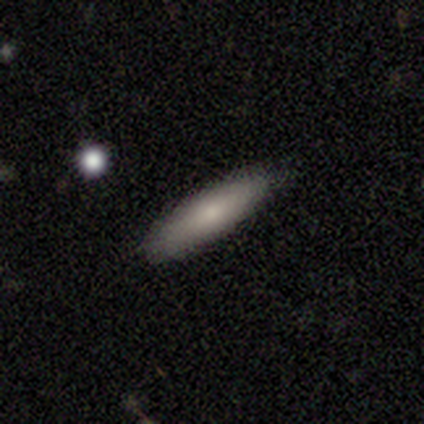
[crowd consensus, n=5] Q: Smooth or featured?
A: smooth (80%); runner-up: star or artifact (20%)
Q: How rounded?
A: in between (75%); runner-up: cigar-shaped (25%)
Q: Merging?
A: none (100%)